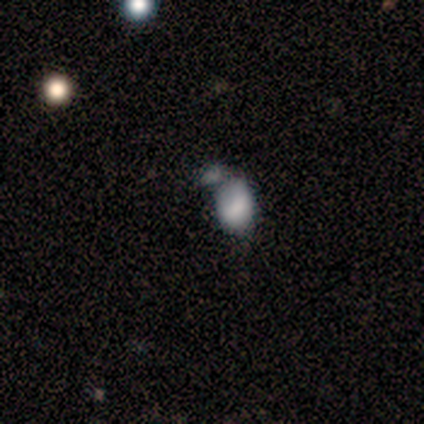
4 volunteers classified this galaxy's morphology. smooth-or-featured: smooth: 100% | featured or disk: 0% | star or artifact: 0%
  how-rounded: in between: 100% | round: 0% | cigar-shaped: 0%
  merging: none: 50% | minor disturbance: 25% | merger: 25% | major disturbance: 0%